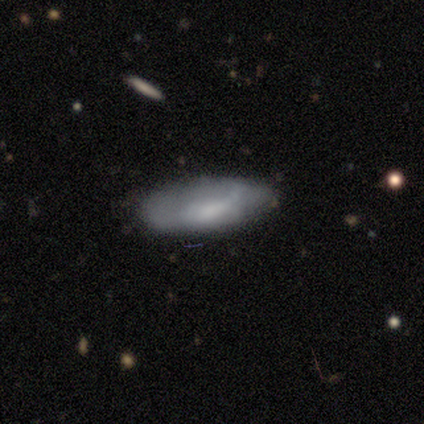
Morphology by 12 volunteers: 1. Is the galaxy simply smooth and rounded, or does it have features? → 58% smooth, 33% featured or disk, 8% star or artifact.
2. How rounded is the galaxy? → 86% in between, 14% cigar-shaped, 0% round.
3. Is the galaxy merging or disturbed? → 64% none, 27% minor disturbance, 9% major disturbance, 0% merger.